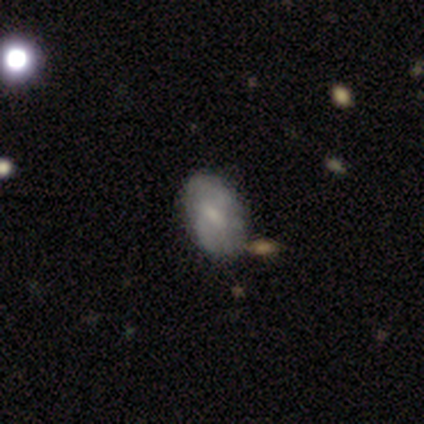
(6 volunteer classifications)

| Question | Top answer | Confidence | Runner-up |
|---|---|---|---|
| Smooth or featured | smooth | 67% | featured or disk (33%) |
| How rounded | in between | 100% | — |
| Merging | none | 50% | merger (33%) |